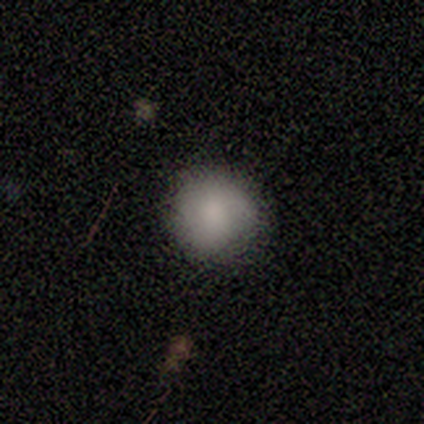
This is clearly a smooth galaxy (100%). How rounded: clearly round (80%). Merging: likely none (60%).